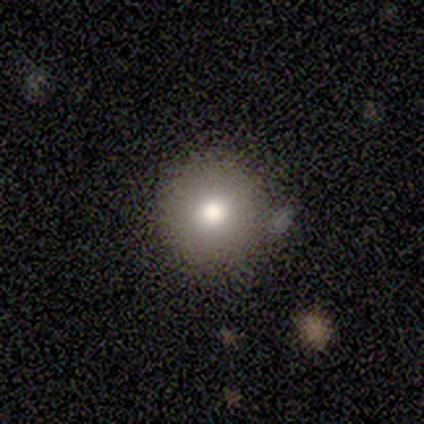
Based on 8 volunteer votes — This is possibly a smooth galaxy (50%). How rounded: clearly round (100%). Merging: clearly none (100%).